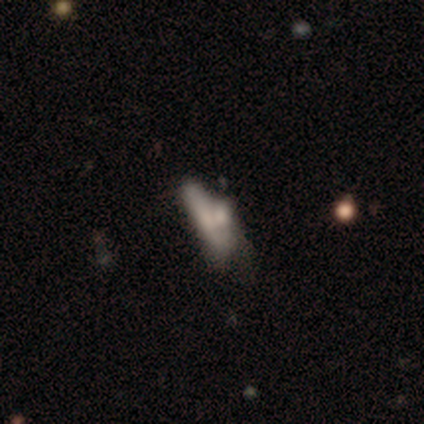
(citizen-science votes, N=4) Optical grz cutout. It shows a smooth galaxy with no disk features (75%) that is in between round and cigar-shaped (67%). Merging: none (25%, tied with minor disturbance, major disturbance and merger).